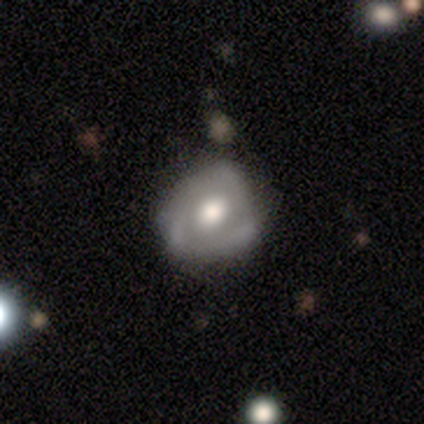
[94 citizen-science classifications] Smooth or featured?
  - featured or disk: 68% *
  - smooth: 30%
  - star or artifact: 2%
Edge-on disk?
  - no: 94% *
  - yes: 6%
Bar?
  - no: 78% *
  - weak: 20%
  - strong: 2%
Spiral arms?
  - yes: 57% *
  - no: 43%
Spiral winding?
  - tight: 35% * (tied)
  - loose: 35% * (tied)
  - medium: 29%
Spiral arm count?
  - 3: 44% *
  - can't tell: 35%
  - 2: 18%
  - 1: 3%
  - 4: 0%
  - more than 4: 0%
Bulge size?
  - moderate: 60% *
  - large: 32%
  - small: 5%
  - dominant: 3%
  - none: 0%
Merging?
  - none: 63% *
  - minor disturbance: 34%
  - major disturbance: 3%
  - merger: 0%